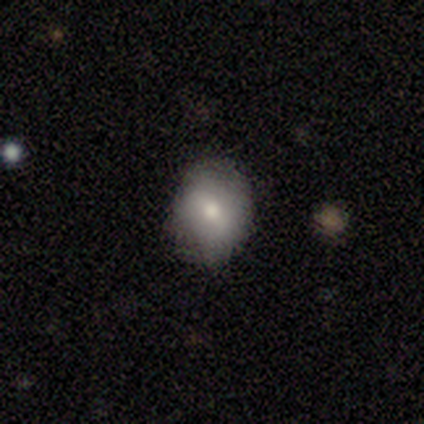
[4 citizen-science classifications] Q: Smooth or featured?
A: smooth (75%); runner-up: featured or disk (25%)
Q: How rounded?
A: in between (67%); runner-up: round (33%)
Q: Merging?
A: none (100%)